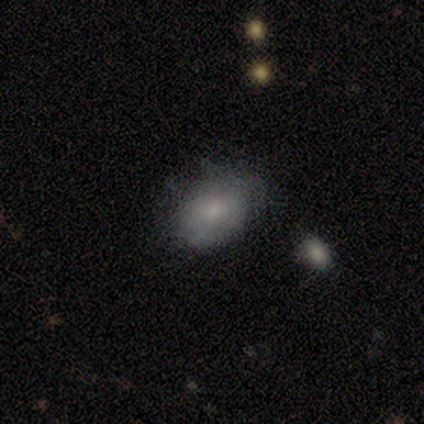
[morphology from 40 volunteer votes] A smooth galaxy with no disk features (80%) that is in between round and cigar-shaped (72%).

Vote fractions:
- Smooth or featured? smooth: 80% / featured or disk: 18% / star or artifact: 2%
- How rounded? in between: 72% / round: 28% / cigar-shaped: 0%
- Merging? none: 56% / minor disturbance: 28% / major disturbance: 10% / merger: 5%